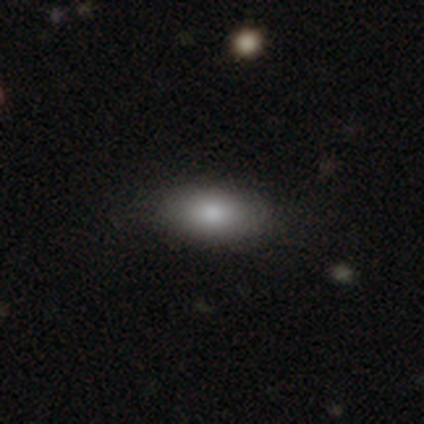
Volunteers were most divided on "merging": none: 89%, major disturbance: 8%, minor disturbance: 3%, merger: 0%. More confident: how rounded — in between (97%); smooth or featured — smooth (90%).